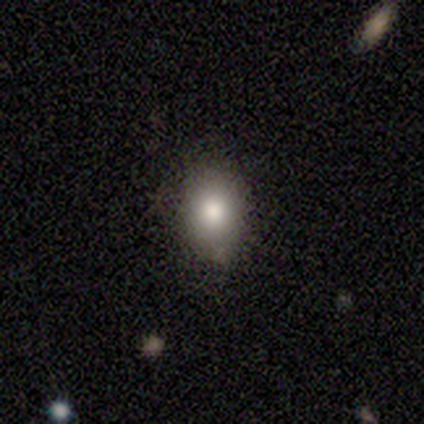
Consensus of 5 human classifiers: Smooth or featured?
  - smooth: 60% *
  - featured or disk: 40%
  - star or artifact: 0%
How rounded?
  - in between: 100% *
  - round: 0%
  - cigar-shaped: 0%
Merging?
  - none: 60% *
  - minor disturbance: 40%
  - major disturbance: 0%
  - merger: 0%